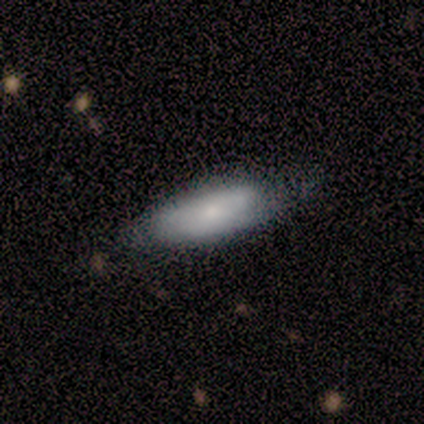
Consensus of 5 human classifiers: Smooth or featured? smooth (100%)
How rounded? cigar-shaped (60%)
Merging? none (80%)